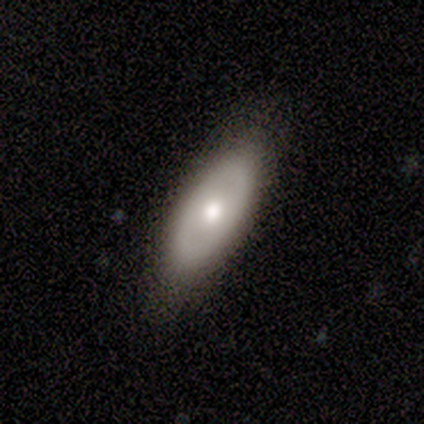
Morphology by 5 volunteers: Volunteers were most divided on "bar" (2-way tie): weak: 50%, no: 50%, strong: 0%; "bulge size" (2-way tie): large: 50%, moderate: 50%, dominant: 0%, small: 0%, none: 0%. More confident: spiral arms — no (100%); merging — none (75%); edge-on disk — no (67%); smooth or featured — featured or disk (60%).